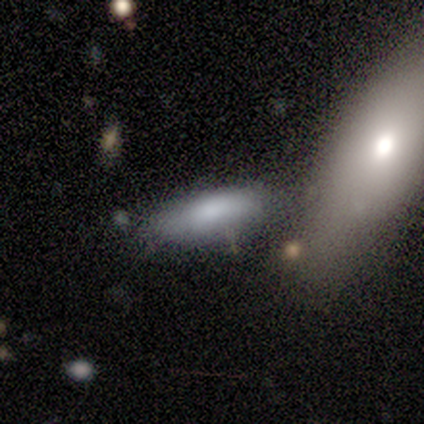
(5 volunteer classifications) smooth_or_featured: smooth (p=0.80) [alt: featured or disk p=0.20]
how_rounded: in between (p=1.00)
merging: none (p=0.40) [tied with: minor disturbance p=0.40]